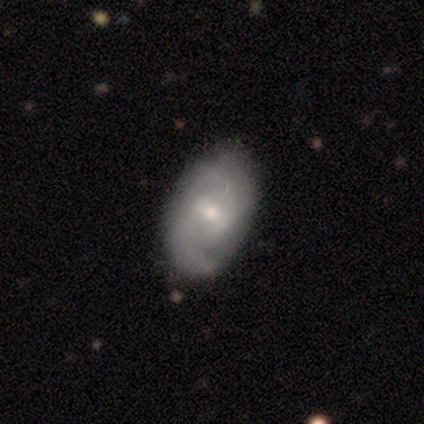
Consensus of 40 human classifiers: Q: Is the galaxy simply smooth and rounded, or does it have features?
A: featured or disk — 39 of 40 (98%).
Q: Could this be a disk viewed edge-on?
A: no — 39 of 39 (100%).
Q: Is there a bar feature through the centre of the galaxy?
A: weak — 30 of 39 (77%).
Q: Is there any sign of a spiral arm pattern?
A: yes — 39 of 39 (100%).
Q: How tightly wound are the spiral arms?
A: medium — 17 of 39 (44%).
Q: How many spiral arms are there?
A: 2 — 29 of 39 (74%).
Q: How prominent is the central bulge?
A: small — 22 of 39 (56%).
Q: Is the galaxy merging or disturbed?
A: none — 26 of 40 (65%).